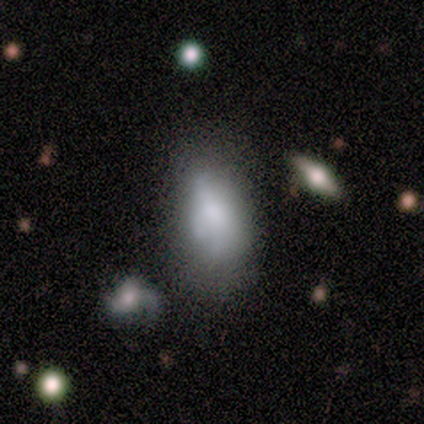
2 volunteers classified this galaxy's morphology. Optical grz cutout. It shows a smooth galaxy with no disk features (100%) that is in between round and cigar-shaped (100%). Merging: none (100%).